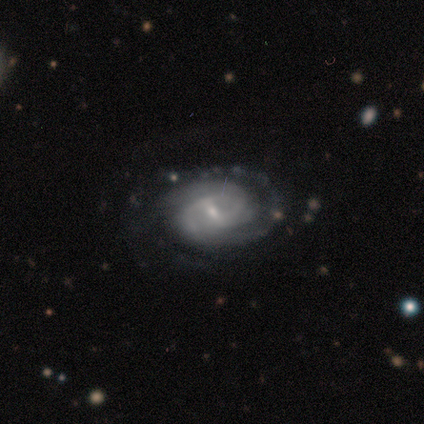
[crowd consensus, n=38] Q: Smooth or featured?
A: featured or disk (89%); runner-up: smooth (11%)
Q: Edge-on disk?
A: no (100%)
Q: Bar?
A: weak (62%); runner-up: strong (21%)
Q: Spiral arms?
A: yes (97%); runner-up: no (3%)
Q: Spiral winding?
A: tight (64%); runner-up: medium (24%)
Q: Spiral arm count?
A: 2 (61%); runner-up: 3 (18%)
Q: Bulge size?
A: small (79%); runner-up: moderate (15%)
Q: Merging?
A: none (79%); runner-up: minor disturbance (11%)